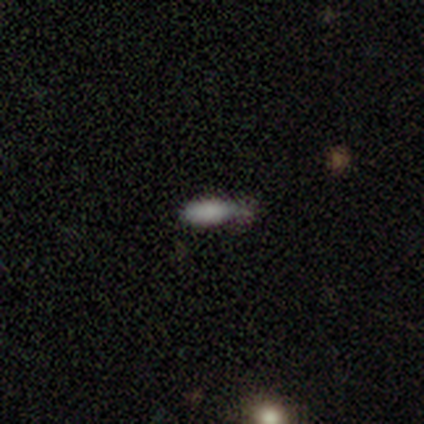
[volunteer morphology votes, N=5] Smooth or featured: smooth — 100%
How rounded: in between — 80% (cigar-shaped — 20%)
Merging: minor disturbance — 60% (none — 40%)